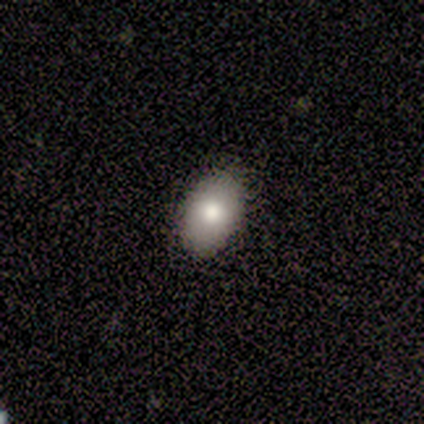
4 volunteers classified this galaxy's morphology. smooth-or-featured: smooth: 100% | featured or disk: 0% | star or artifact: 0%
  how-rounded: in between: 75% | cigar-shaped: 25% | round: 0%
  merging: none: 50% (tied) | minor disturbance: 50% (tied) | major disturbance: 0% | merger: 0%